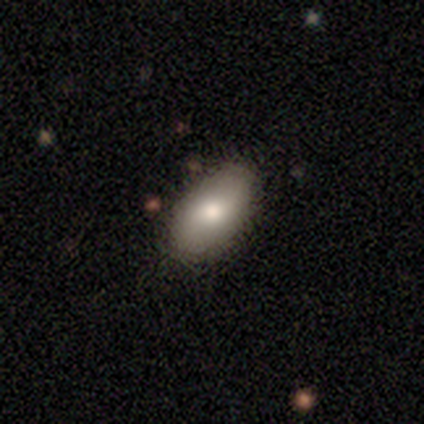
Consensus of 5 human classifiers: This is likely a smooth galaxy (60%). How rounded: clearly in between (100%). Merging: clearly none (100%).